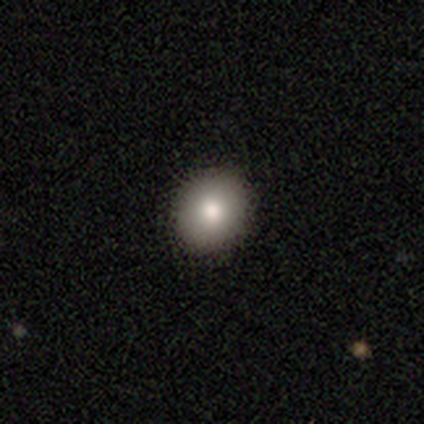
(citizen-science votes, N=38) Smooth or featured? smooth (92%)
How rounded? round (83%)
Merging? none (97%)